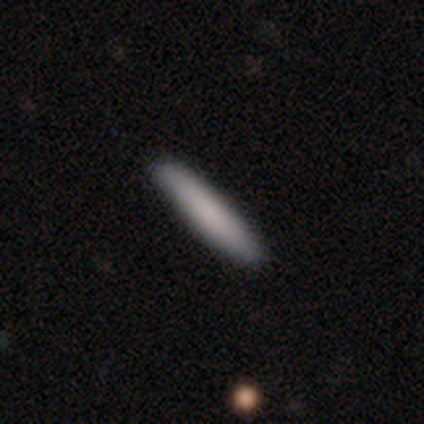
This is clearly a smooth galaxy (100%). How rounded: clearly cigar-shaped (100%). Merging: clearly none (100%).